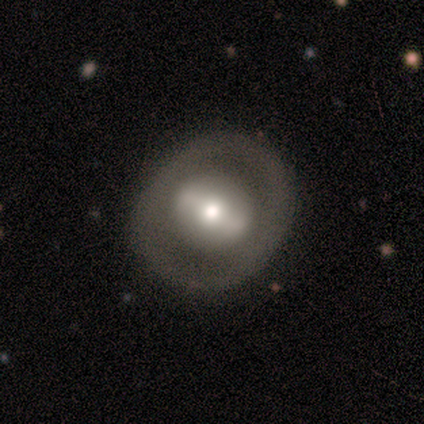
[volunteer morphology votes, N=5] Smooth or featured? featured or disk (60%)
Edge-on disk? no (100%)
Bar? weak (67%)
Spiral arms? no (100%)
Bulge size? small (67%)
Merging? none (75%)